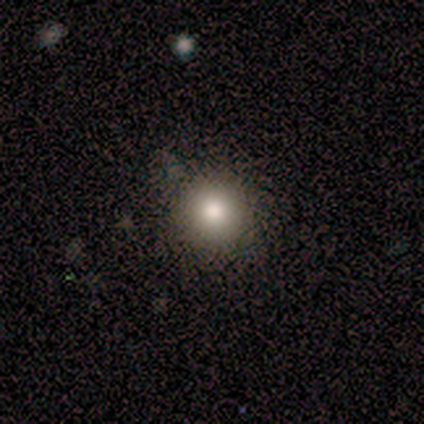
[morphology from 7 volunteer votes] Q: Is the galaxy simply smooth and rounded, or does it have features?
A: smooth — 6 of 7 (86%).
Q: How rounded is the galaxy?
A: round — 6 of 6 (100%).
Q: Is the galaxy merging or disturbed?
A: none — 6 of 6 (100%).